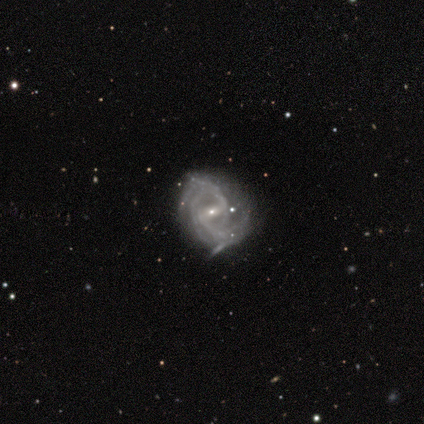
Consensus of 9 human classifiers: This appears to be a featured or disk galaxy (100%) with a strong bar (44%, tied with weak), 3 (44%) medium (67%) spiral arms (100%) and a small central bulge (89%). Merging: minor disturbance (67%).